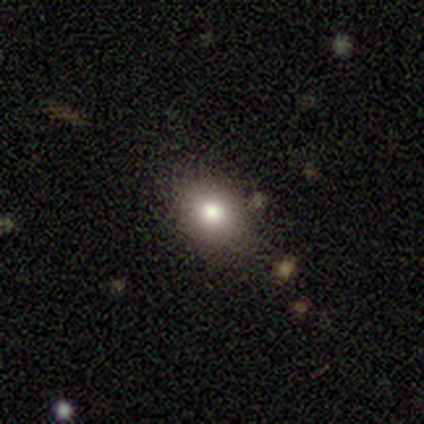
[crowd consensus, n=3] Smooth or featured?
  - smooth: 67% *
  - star or artifact: 33%
  - featured or disk: 0%
How rounded?
  - in between: 100% *
  - round: 0%
  - cigar-shaped: 0%
Merging?
  - none: 50% * (tied)
  - minor disturbance: 50% * (tied)
  - major disturbance: 0%
  - merger: 0%